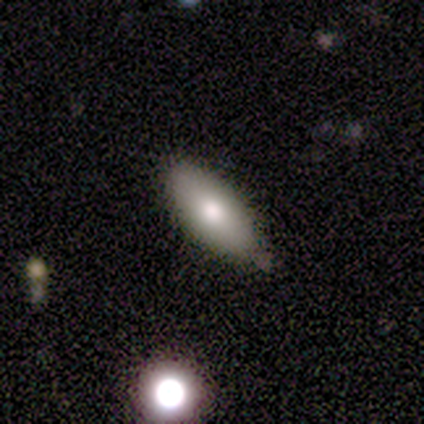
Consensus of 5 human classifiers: Smooth or featured? 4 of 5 (80%) said smooth. How rounded? 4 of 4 (100%) said in between. Merging? 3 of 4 (75%) said none.